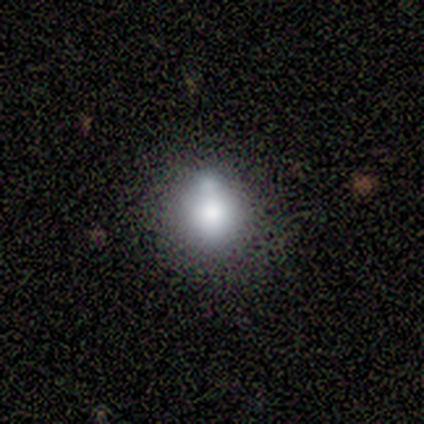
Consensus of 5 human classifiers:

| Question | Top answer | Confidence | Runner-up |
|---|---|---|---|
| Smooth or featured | smooth | 80% | featured or disk (20%) |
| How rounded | round | 75% | in between (25%) |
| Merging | none | 80% | merger (20%) |